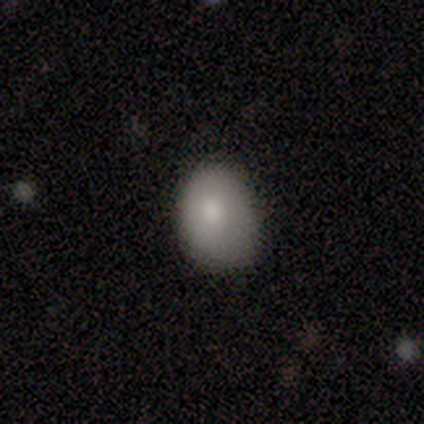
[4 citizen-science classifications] Smooth or featured? smooth (75%)
How rounded? round (67%)
Merging? none (50%)